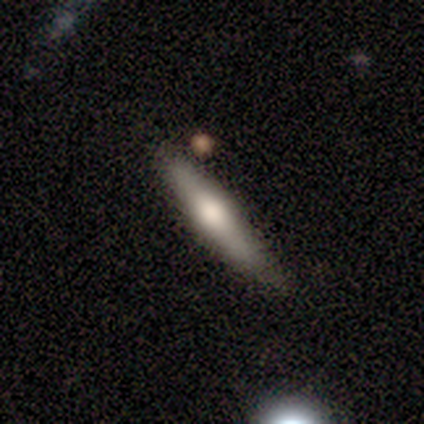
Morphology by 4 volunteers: This appears to be a featured or disk galaxy (75%) viewed edge-on (67%) with a rounded central bulge (100%). Merging: none (50%, tied with minor disturbance).